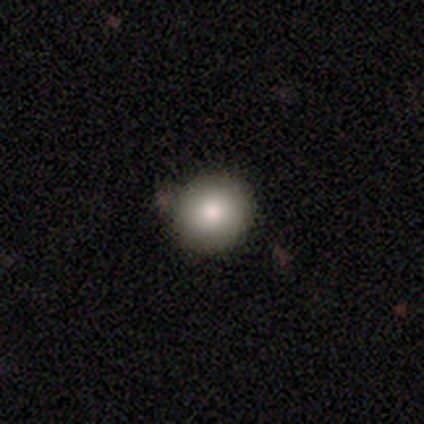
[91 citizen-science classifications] This appears to be a smooth galaxy with no disk features (84%) that is round (91%). Merging: none (85%).